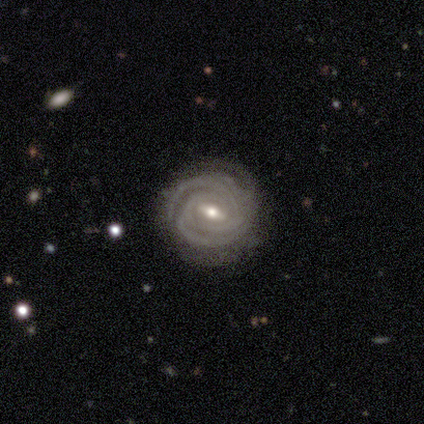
Morphology: type=featured or disk (92%); edge-on=no (100%); bar=strong (49%); spiral arms=yes (97%); winding=tight (89%); arm count=3 (33%); bulge=moderate (59%); merging=none (68%).